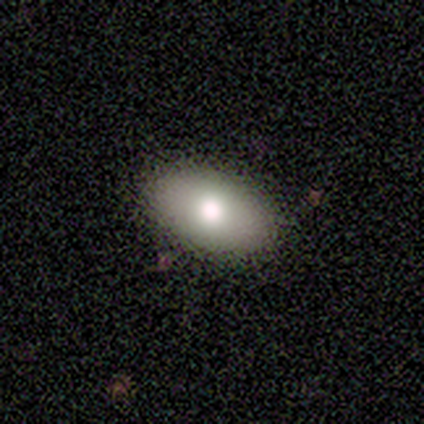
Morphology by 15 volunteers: smooth_or_featured: smooth (p=0.80) [alt: featured or disk p=0.13]
how_rounded: in between (p=0.92) [alt: cigar-shaped p=0.08]
merging: none (p=0.86) [alt: minor disturbance p=0.07]